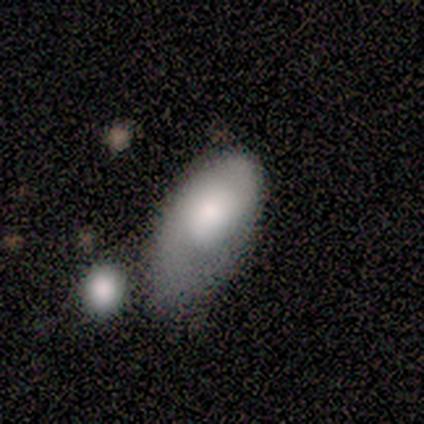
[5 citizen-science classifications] A smooth galaxy with no disk features (80%) that is in between round and cigar-shaped (100%).

Vote fractions:
- Smooth or featured? smooth: 80% / featured or disk: 20% / star or artifact: 0%
- How rounded? in between: 100% / round: 0% / cigar-shaped: 0%
- Merging? none: 40% (tied) / minor disturbance: 40% (tied) / major disturbance: 20% / merger: 0%